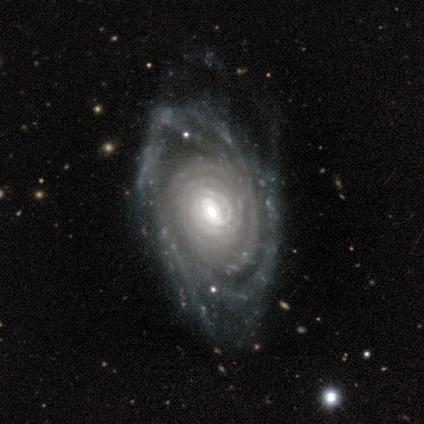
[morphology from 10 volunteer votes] featured or disk 100%, smooth 0%, star or artifact 0%. Down the decision tree: edge-on disk — no (90%); bar — no (56%); spiral arms — yes (100%); spiral arm count — 3 (56%); spiral winding — tight (89%); bulge size — moderate (67%); merging — none (40%).